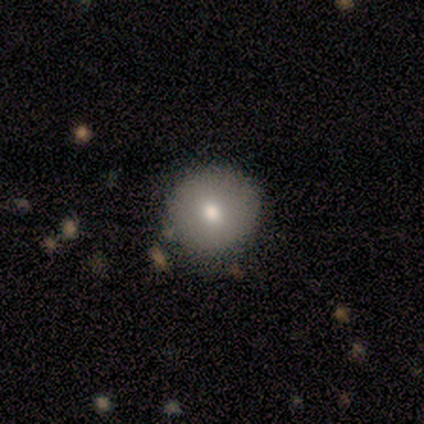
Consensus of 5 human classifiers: Overall: smooth (60%; featured or disk 40%). How rounded: round (100%). Merging: none (100%).